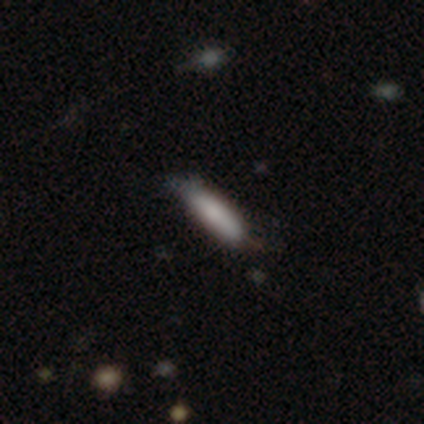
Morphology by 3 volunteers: Smooth or featured? 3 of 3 (100%) said smooth. How rounded? 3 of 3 (100%) said cigar-shaped. Merging? 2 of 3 (67%) said minor disturbance.